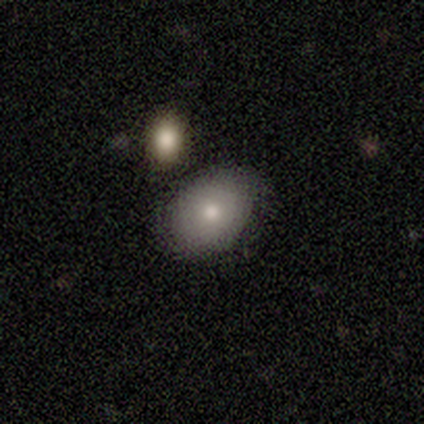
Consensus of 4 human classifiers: Smooth or featured? smooth (100%)
How rounded? in between (75%)
Merging? none (75%)